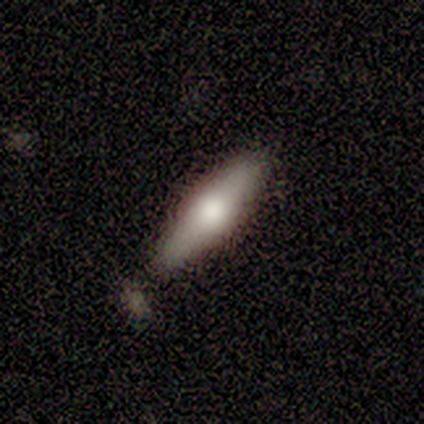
A featured or disk galaxy (75%) viewed edge-on (100%) with a rounded central bulge (100%).

Vote fractions:
- Smooth or featured? featured or disk: 75% / smooth: 25% / star or artifact: 0%
- Edge-on disk? yes: 100% / no: 0%
- Edge-on bulge? rounded: 100% / boxy: 0% / none: 0%
- Merging? none: 100% / minor disturbance: 0% / major disturbance: 0% / merger: 0%